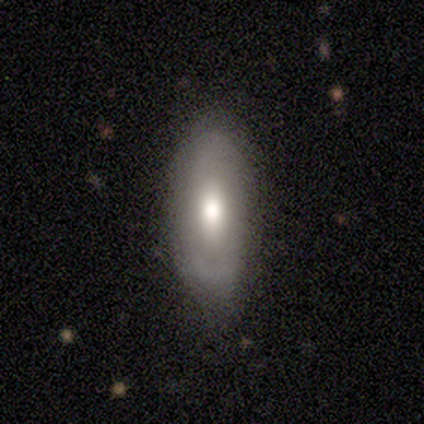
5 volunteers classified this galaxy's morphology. Q: Smooth or featured?
A: smooth (60%); runner-up: featured or disk (40%)
Q: How rounded?
A: in between (67%); runner-up: cigar-shaped (33%)
Q: Merging?
A: none (80%); runner-up: minor disturbance (20%)